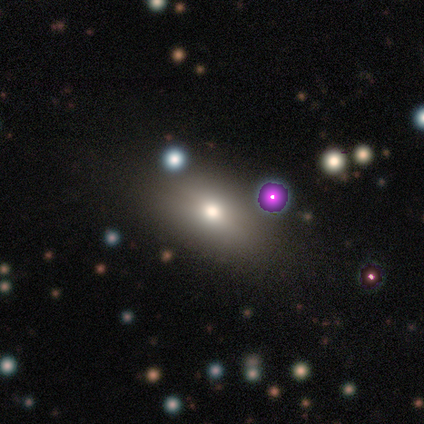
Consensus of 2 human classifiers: Smooth or featured? smooth (100%)
How rounded? round (50%, tied with in between)
Merging? none (50%, tied with minor disturbance)